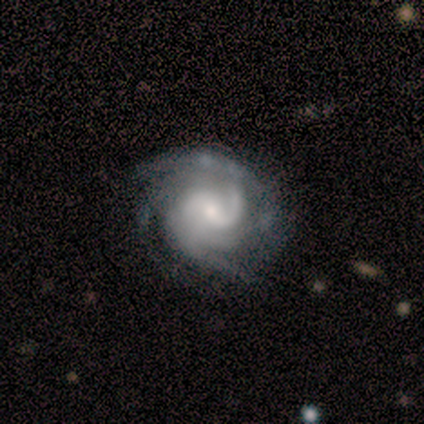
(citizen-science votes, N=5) Smooth or featured? 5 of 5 (100%) said featured or disk. Edge-on disk? 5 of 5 (100%) said no. Bar? 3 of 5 (60%) said weak. Spiral arms? 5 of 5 (100%) said yes. Spiral winding? 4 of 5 (80%) said medium. Spiral arm count? 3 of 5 (60%) said 4. Bulge size? 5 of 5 (100%) said small. Merging? 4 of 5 (80%) said none.